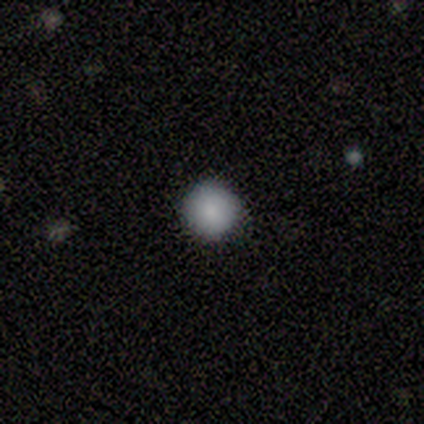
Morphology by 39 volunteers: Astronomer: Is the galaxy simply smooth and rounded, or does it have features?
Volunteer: smooth — 90%.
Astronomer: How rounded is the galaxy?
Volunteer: round — 100%.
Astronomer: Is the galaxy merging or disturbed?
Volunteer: none — 92%.